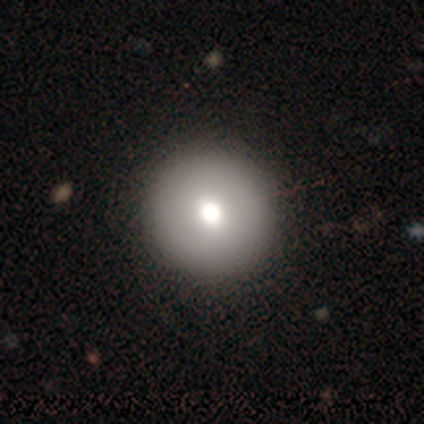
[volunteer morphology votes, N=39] Volunteers were most divided on "smooth or featured": smooth: 87%, featured or disk: 13%, star or artifact: 0%. More confident: how rounded — round (100%); merging — none (85%).